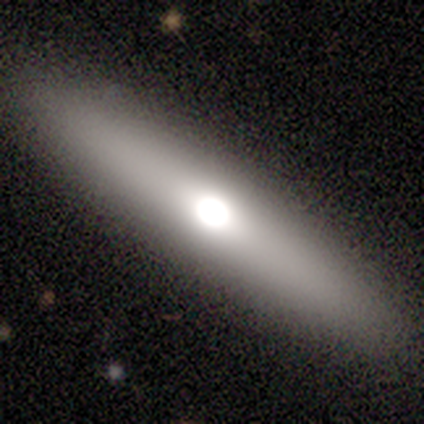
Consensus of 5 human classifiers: Smooth or featured?
  - smooth: 60% *
  - featured or disk: 40%
  - star or artifact: 0%
How rounded?
  - cigar-shaped: 67% *
  - in between: 33%
  - round: 0%
Merging?
  - none: 100% *
  - minor disturbance: 0%
  - major disturbance: 0%
  - merger: 0%